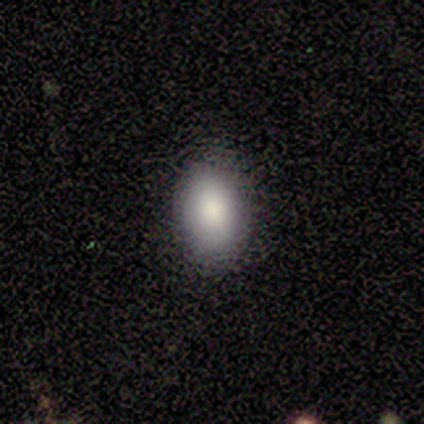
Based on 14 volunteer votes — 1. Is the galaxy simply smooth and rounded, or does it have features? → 100% smooth, 0% featured or disk, 0% star or artifact.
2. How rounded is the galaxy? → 86% in between, 14% round, 0% cigar-shaped.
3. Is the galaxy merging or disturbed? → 100% none, 0% minor disturbance, 0% major disturbance, 0% merger.